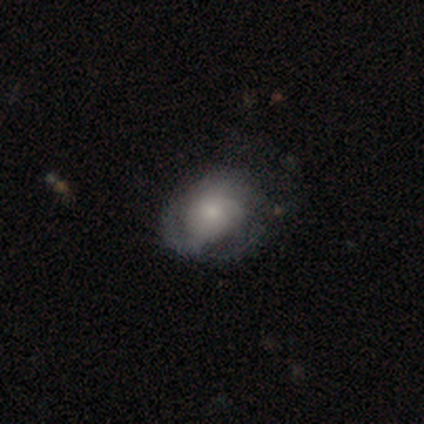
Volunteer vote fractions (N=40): Smooth or featured?
  - smooth: 50% *
  - featured or disk: 45%
  - star or artifact: 5%
How rounded?
  - in between: 65% *
  - round: 35%
  - cigar-shaped: 0%
Merging?
  - none: 45% *
  - major disturbance: 34%
  - minor disturbance: 16%
  - merger: 5%